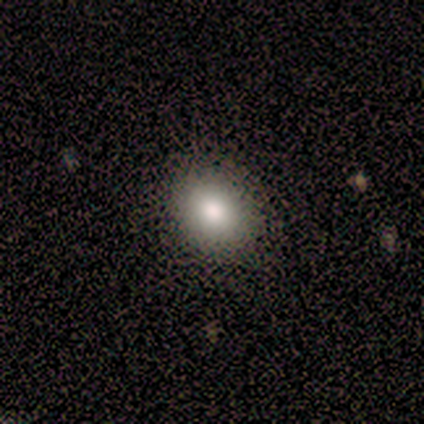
A smooth galaxy with no disk features (80%) that is round (50%, tied with in between).

Vote fractions:
- Smooth or featured? smooth: 80% / star or artifact: 20% / featured or disk: 0%
- How rounded? round: 50% (tied) / in between: 50% (tied) / cigar-shaped: 0%
- Merging? none: 100% / minor disturbance: 0% / major disturbance: 0% / merger: 0%